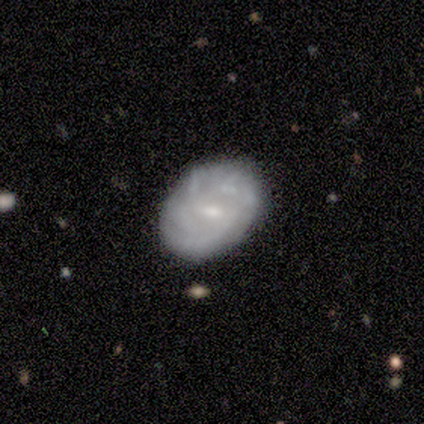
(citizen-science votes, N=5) smooth_or_featured: featured or disk (p=0.80) [alt: smooth p=0.20]
disk_edge_on: no (p=1.00)
bar: weak (p=0.75) [alt: no p=0.25]
has_spiral_arms: yes (p=1.00)
spiral_winding: medium (p=0.50) [alt: tight p=0.25]
spiral_arm_count: 2 (p=0.50) [tied with: can't tell p=0.50]
bulge_size: small (p=0.50) [alt: moderate p=0.25]
merging: none (p=1.00)